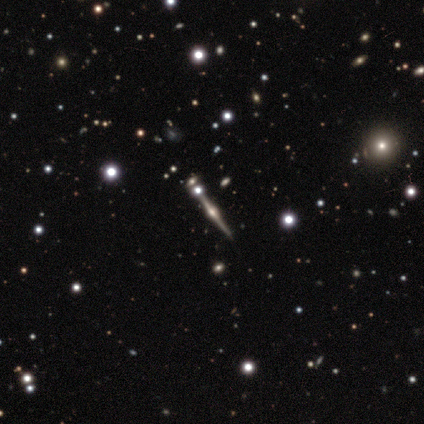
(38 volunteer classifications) A featured or disk galaxy (84%) viewed edge-on (97%) with a rounded central bulge (97%). Merging: none (76%).